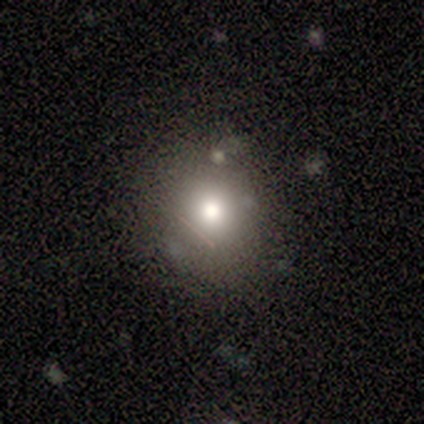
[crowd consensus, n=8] A smooth galaxy with no disk features (75%) that is round (83%). Merging: none (67%).